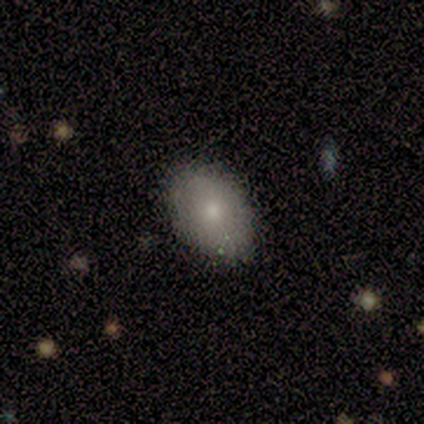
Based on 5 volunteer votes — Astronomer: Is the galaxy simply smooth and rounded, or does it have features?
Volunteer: smooth — 80%.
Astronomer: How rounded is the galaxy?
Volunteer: in between — 100%.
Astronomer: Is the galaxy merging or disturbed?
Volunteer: none — 100%.